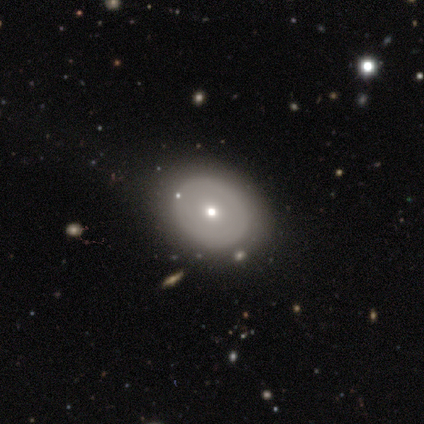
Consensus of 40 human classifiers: Smooth or featured? 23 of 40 (57%) said smooth. How rounded? 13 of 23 (57%) said round. Merging? 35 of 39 (90%) said none.